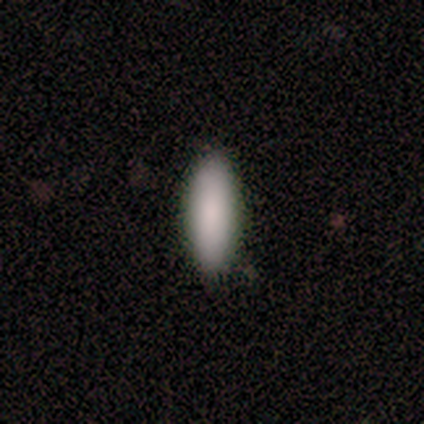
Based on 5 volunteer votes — This is clearly a smooth galaxy (100%). How rounded: likely in between (60%). Merging: clearly none (80%).